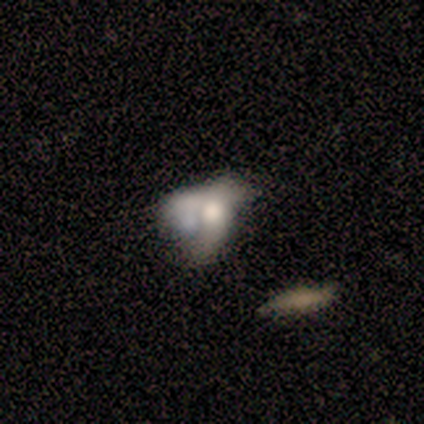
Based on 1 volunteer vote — A featured or disk galaxy (100%) viewed edge-on (100%) with a rounded central bulge (100%).

Vote fractions:
- Smooth or featured? featured or disk: 100% / smooth: 0% / star or artifact: 0%
- Edge-on disk? yes: 100% / no: 0%
- Edge-on bulge? rounded: 100% / boxy: 0% / none: 0%
- Merging? merger: 100% / none: 0% / minor disturbance: 0% / major disturbance: 0%